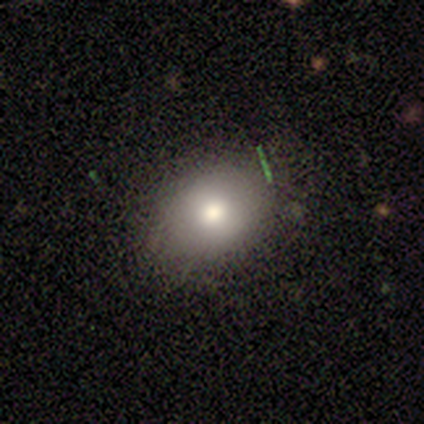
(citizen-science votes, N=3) Smooth or featured? 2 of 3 (67%) said smooth. How rounded? 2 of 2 (100%) said in between. Merging? 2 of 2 (100%) said none.